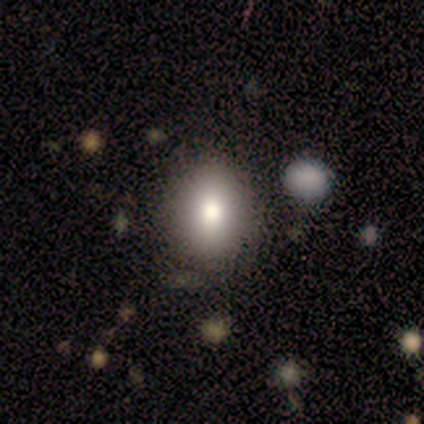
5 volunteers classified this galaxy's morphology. type=smooth (100%); roundness=in between (60%); merging=none (100%).